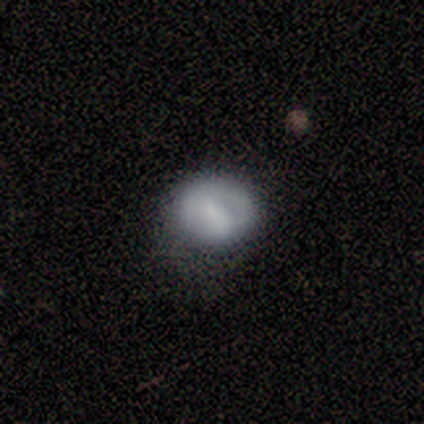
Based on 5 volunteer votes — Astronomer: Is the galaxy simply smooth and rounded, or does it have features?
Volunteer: smooth — 80%.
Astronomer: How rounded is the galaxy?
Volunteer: round — 100%.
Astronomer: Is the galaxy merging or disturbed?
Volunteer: none — 60% (runner-up: minor disturbance, 40%).